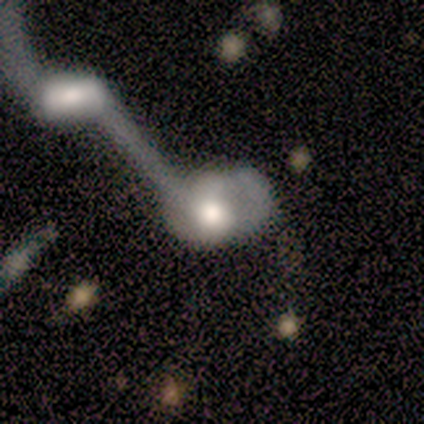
A featured or disk galaxy (54%) with no bar (90%), no spiral arms (67%) and a large central bulge (48%). Merging: merger (82%).